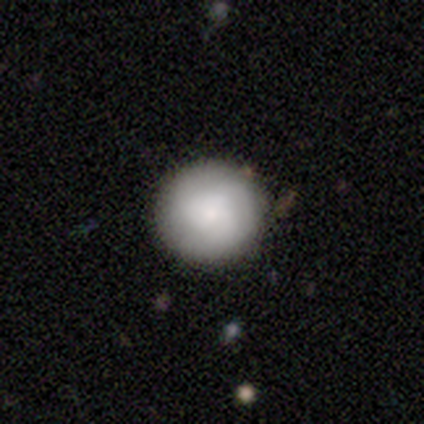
Smooth or featured?
  - smooth: 77% *
  - featured or disk: 15%
  - star or artifact: 8%
How rounded?
  - round: 90% *
  - in between: 10%
  - cigar-shaped: 0%
Merging?
  - none: 75% *
  - minor disturbance: 25%
  - major disturbance: 0%
  - merger: 0%